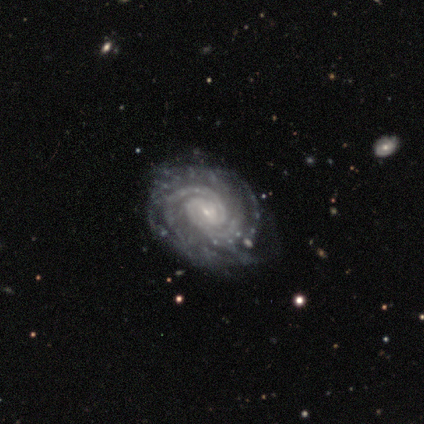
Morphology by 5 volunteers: Volunteers were most divided on "spiral arm count" (2-way tie): 2: 40%, 4: 40%, can't tell: 20%, 1: 0%, 3: 0%, more than 4: 0%. More confident: smooth or featured — featured or disk (100%); edge-on disk — no (100%); spiral arms — yes (100%); merging — none (100%); spiral winding — tight (80%); bulge size — small (60%); bar — no (60%).